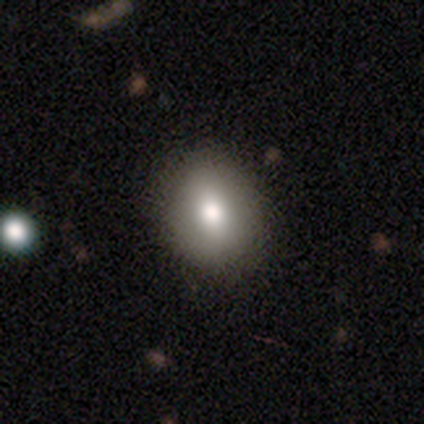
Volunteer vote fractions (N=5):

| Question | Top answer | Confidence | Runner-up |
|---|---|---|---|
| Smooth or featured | smooth | 60% | star or artifact (40%) |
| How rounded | in between | 67% | round (33%) |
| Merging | none | 67% | minor disturbance (33%) |